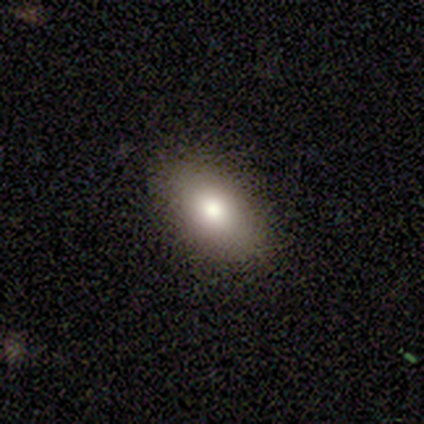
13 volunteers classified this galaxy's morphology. type=smooth (77%); roundness=in between (100%); merging=none (92%).